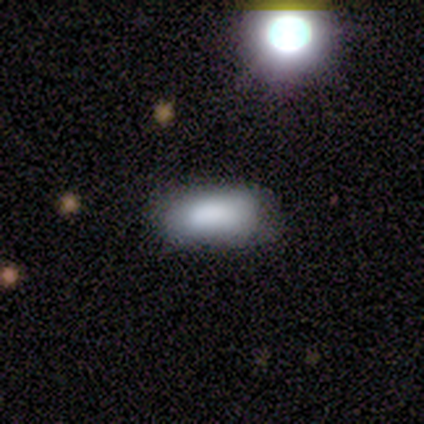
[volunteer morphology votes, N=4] This is likely a smooth galaxy (75%). How rounded: clearly in between (100%). Merging: clearly none (100%).